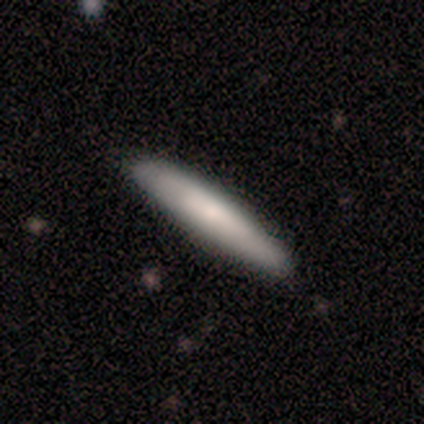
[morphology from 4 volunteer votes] smooth 50% (tied), featured or disk 50% (tied), star or artifact 0%. Down the decision tree: how rounded — cigar-shaped (100%); merging — none (50%, tied with minor disturbance).